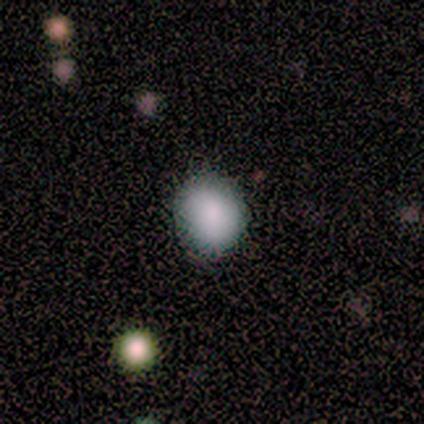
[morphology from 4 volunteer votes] type=smooth (75%); roundness=in between (67%); merging=none (67%).